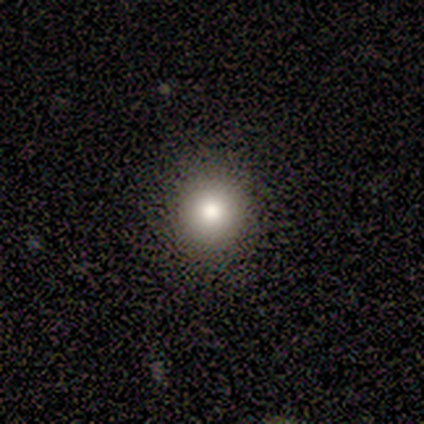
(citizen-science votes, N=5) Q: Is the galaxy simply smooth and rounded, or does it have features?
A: smooth — 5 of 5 (100%).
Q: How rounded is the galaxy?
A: round — 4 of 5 (80%).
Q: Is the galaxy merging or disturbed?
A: none — 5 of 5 (100%).